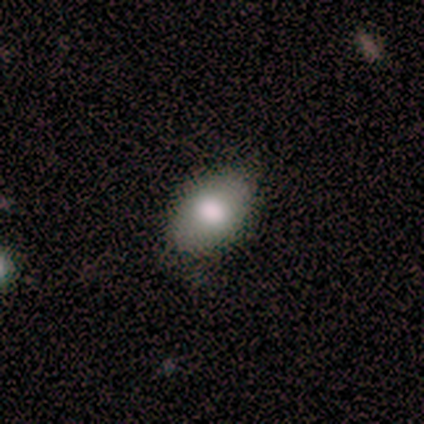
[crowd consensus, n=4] Morphology: type=smooth (75%); roundness=in between (67%); merging=none (100%).